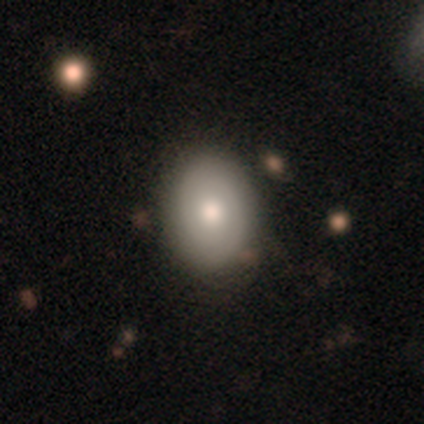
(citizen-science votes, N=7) Morphology: type=smooth (71%); roundness=round (60%); merging=none (86%).